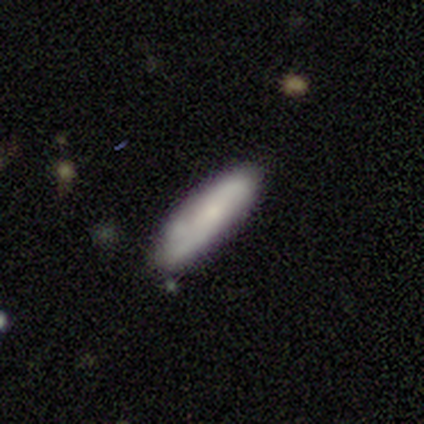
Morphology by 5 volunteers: This is clearly a smooth galaxy (80%). How rounded: likely cigar-shaped (75%). Merging: likely none (60%).